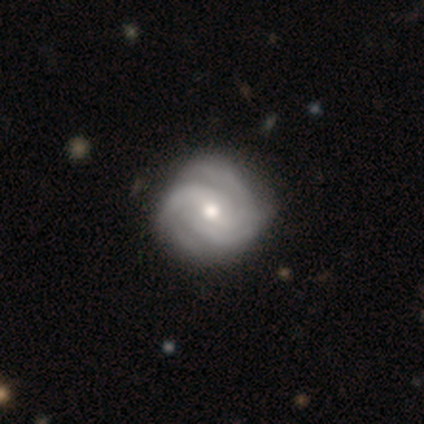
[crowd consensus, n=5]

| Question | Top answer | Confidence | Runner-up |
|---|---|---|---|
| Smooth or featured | featured or disk | 100% | — |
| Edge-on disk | no | 100% | — |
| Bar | weak | 40% | tied: no (40%) |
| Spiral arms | yes | 100% | — |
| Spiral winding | tight | 80% | loose (20%) |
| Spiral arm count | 2 | 40% | 3 (20%) |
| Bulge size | small | 60% | moderate (40%) |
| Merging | none | 100% | — |